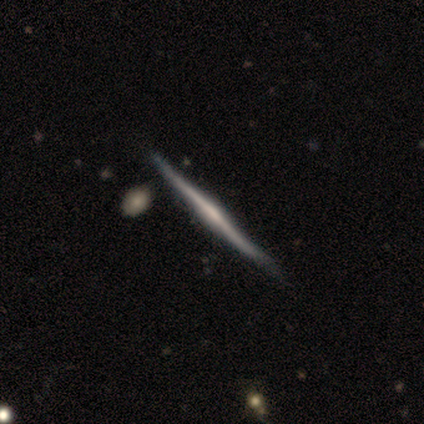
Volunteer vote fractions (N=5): smooth_or_featured: featured or disk (p=0.80) [alt: smooth p=0.20]
disk_edge_on: yes (p=1.00)
edge_on_bulge: rounded (p=0.75) [alt: boxy p=0.25]
merging: none (p=0.40) [tied with: minor disturbance p=0.40]